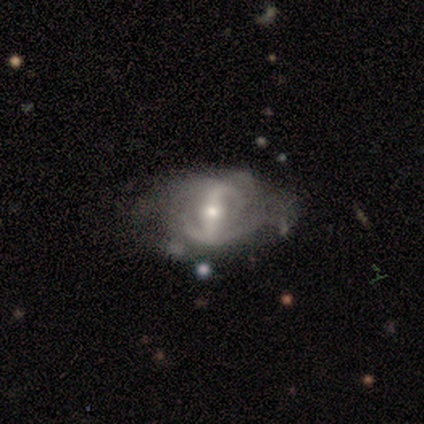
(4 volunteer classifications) Smooth or featured? 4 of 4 (100%) said featured or disk. Edge-on disk? 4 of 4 (100%) said no. Bar? 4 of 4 (100%) said strong. Spiral arms? 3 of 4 (75%) said yes. Spiral winding? 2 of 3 (67%) said loose. Spiral arm count? 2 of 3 (67%) said can't tell. Bulge size? 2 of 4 (50%, tied with small) said moderate. Merging? 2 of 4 (50%, tied with major disturbance) said none.